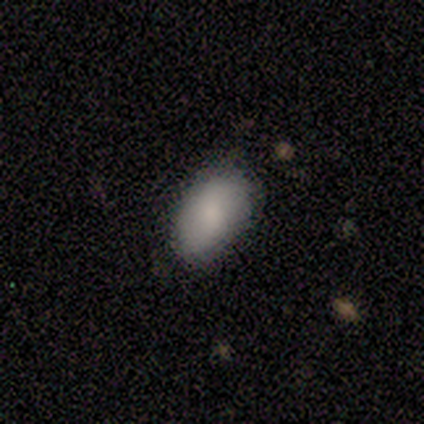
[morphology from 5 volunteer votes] Volunteers were most divided on "merging": none: 80%, minor disturbance: 20%, major disturbance: 0%, merger: 0%. More confident: smooth or featured — smooth (100%); how rounded — in between (100%).